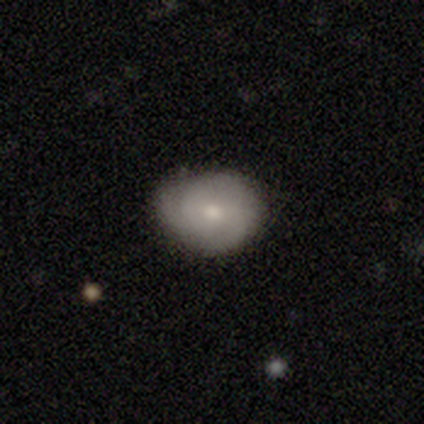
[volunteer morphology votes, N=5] Smooth or featured: smooth — 40% (tied with featured or disk — 40%)
How rounded: round — 50% (tied with in between — 50%)
Merging: none — 50% (tied with minor disturbance — 50%)